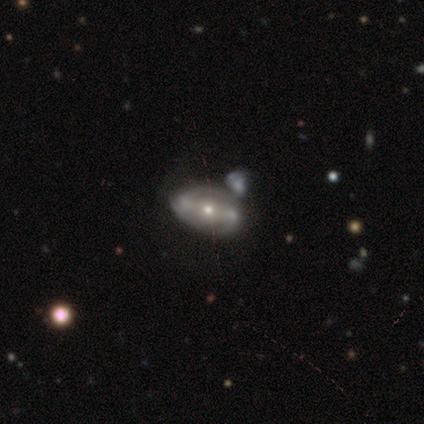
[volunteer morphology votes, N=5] Smooth or featured? 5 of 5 (100%) said featured or disk. Edge-on disk? 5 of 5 (100%) said no. Bar? 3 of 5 (60%) said strong. Spiral arms? 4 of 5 (80%) said yes. Spiral winding? 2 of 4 (50%) said medium. Spiral arm count? 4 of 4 (100%) said 2. Bulge size? 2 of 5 (40%, tied with small) said moderate. Merging? 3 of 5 (60%) said none.